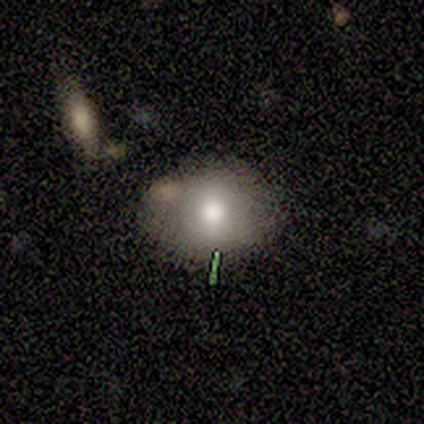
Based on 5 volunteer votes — A smooth galaxy with no disk features (60%) that is in between round and cigar-shaped (67%). Merging: none (100%).